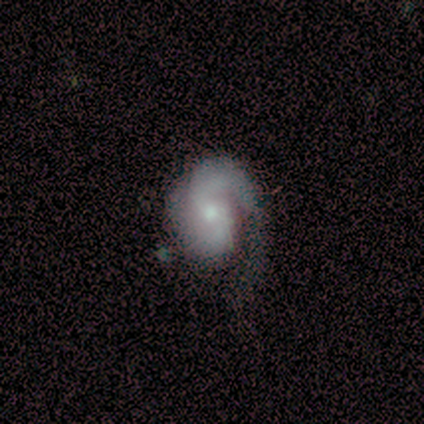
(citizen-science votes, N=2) Smooth or featured? 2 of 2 (100%) said featured or disk. Edge-on disk? 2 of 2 (100%) said no. Bar? 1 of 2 (50%, tied with no) said weak. Spiral arms? 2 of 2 (100%) said yes. Spiral winding? 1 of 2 (50%, tied with medium) said tight. Spiral arm count? 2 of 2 (100%) said 2. Bulge size? 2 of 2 (100%) said moderate. Merging? 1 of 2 (50%, tied with merger) said major disturbance.